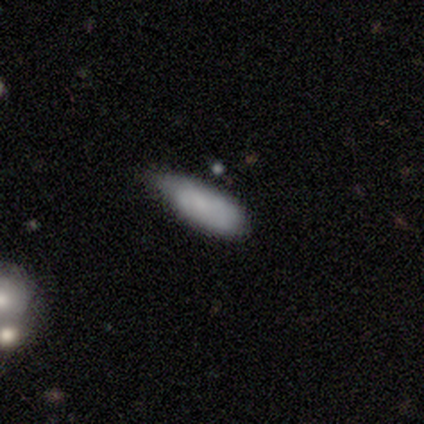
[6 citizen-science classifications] This is clearly a smooth galaxy (100%). How rounded: likely in between (67%). Merging: possibly minor disturbance (50%).